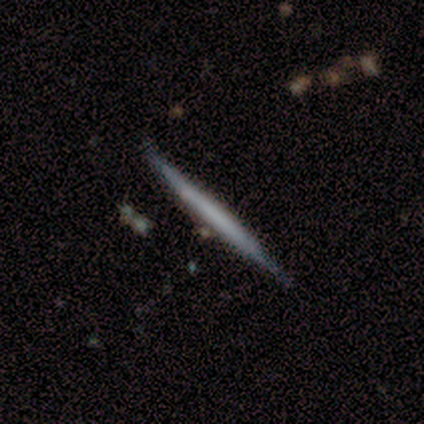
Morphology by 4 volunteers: Smooth or featured? smooth (50%, tied with featured or disk)
How rounded? cigar-shaped (100%)
Merging? none (100%)